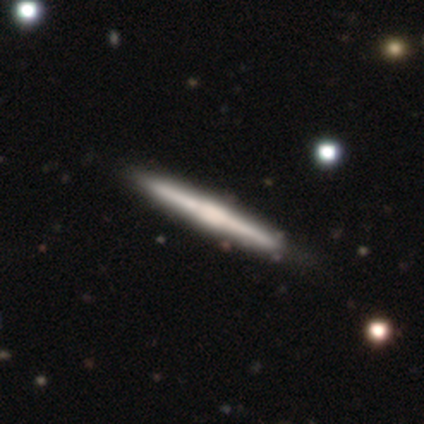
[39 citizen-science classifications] A featured or disk galaxy (82%) viewed edge-on (100%) with a boxy central bulge (69%).

Vote fractions:
- Smooth or featured? featured or disk: 82% / smooth: 18% / star or artifact: 0%
- Edge-on disk? yes: 100% / no: 0%
- Edge-on bulge? boxy: 69% / none: 19% / rounded: 12%
- Merging? none: 59% / minor disturbance: 8% / merger: 3% / major disturbance: 0%